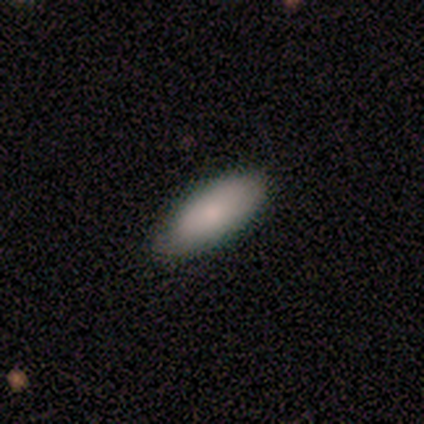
Morphology: type=smooth (75%); roundness=in between (67%); merging=none (75%).